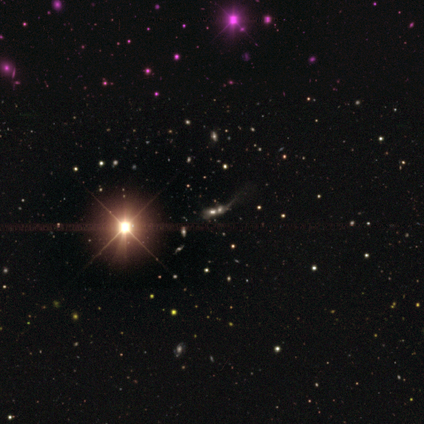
This is likely a star or artifact rather than a galaxy (75%).